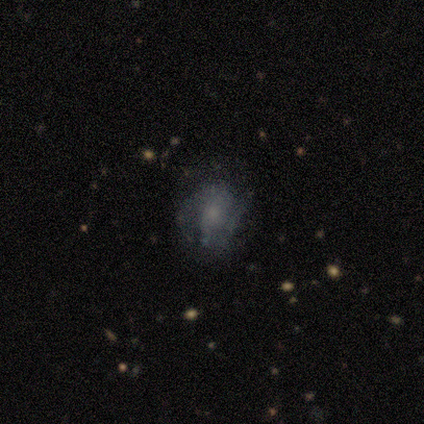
smooth 50% (tied), featured or disk 50% (tied), star or artifact 0%. Down the decision tree: how rounded — round (50%, tied with in between); merging — none (75%).